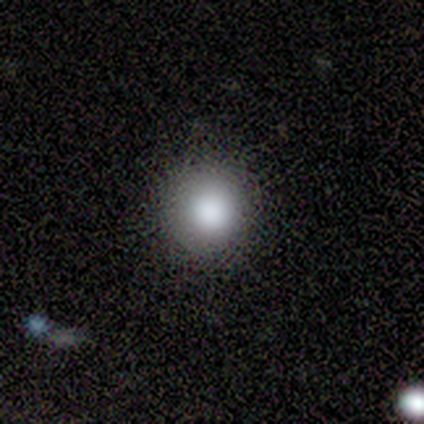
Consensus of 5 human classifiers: Smooth or featured: smooth — 100%
How rounded: round — 80% (in between — 20%)
Merging: none — 60% (minor disturbance — 40%)